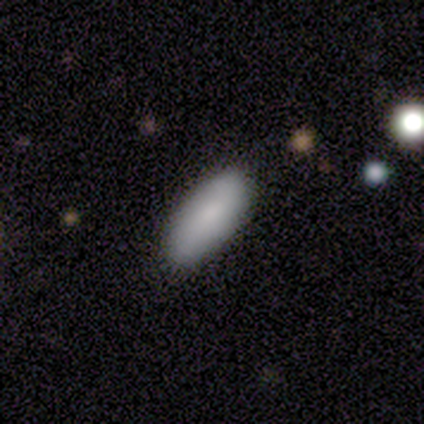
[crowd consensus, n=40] smooth 80%, featured or disk 18%, star or artifact 2%. Down the decision tree: how rounded — in between (88%); merging — none (90%).